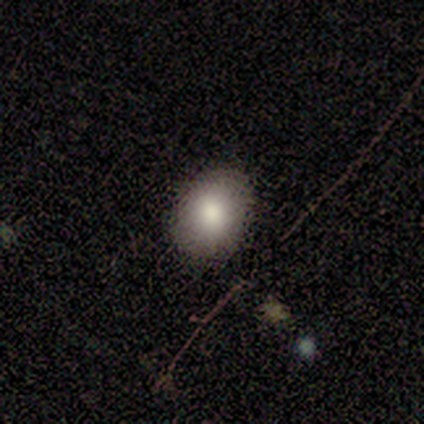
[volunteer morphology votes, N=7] Smooth or featured? smooth (86%)
How rounded? in between (83%)
Merging? none (86%)